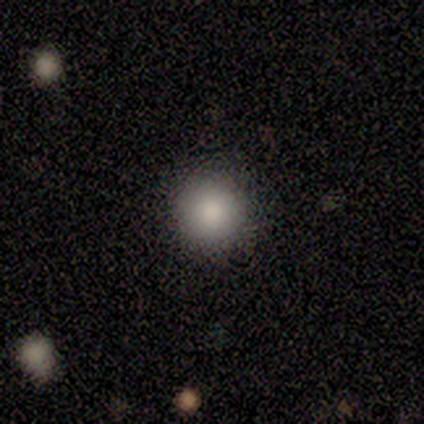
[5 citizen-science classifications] Morphology: type=smooth (80%); roundness=round (75%); merging=none (100%).